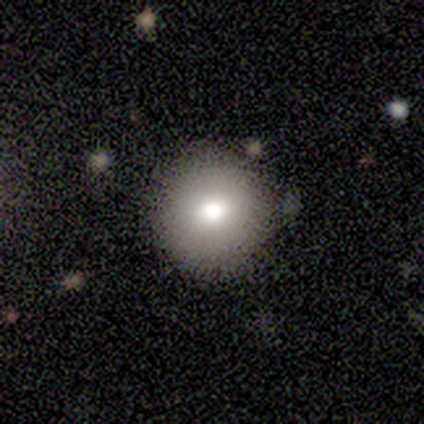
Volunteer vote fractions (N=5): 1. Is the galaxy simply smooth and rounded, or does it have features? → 80% smooth, 20% star or artifact, 0% featured or disk.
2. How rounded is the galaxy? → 100% round, 0% in between, 0% cigar-shaped.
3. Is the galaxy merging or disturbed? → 100% none, 0% minor disturbance, 0% major disturbance, 0% merger.